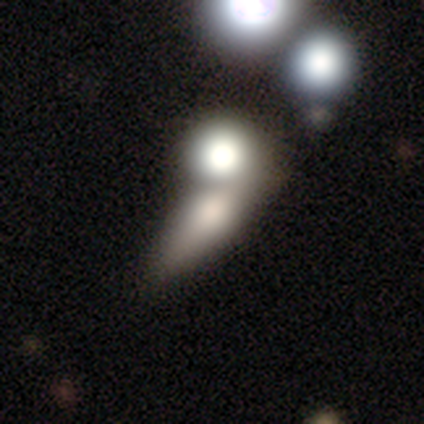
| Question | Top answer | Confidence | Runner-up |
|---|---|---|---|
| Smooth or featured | smooth | 45% | featured or disk (42%) |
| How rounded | in between | 50% | round (39%) |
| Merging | merger | 46% | none (40%) |